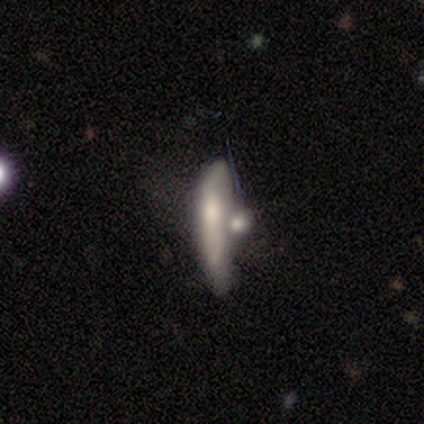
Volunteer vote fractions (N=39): smooth 49% (tied), featured or disk 49% (tied), star or artifact 3%. Down the decision tree: how rounded — cigar-shaped (79%); merging — merger (47%).